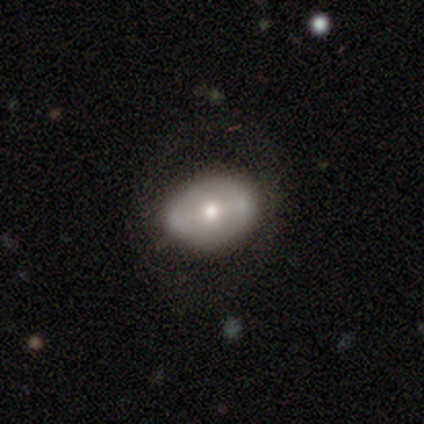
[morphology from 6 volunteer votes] Volunteers were most divided on "bar": no: 80%, strong: 20%, weak: 0%. More confident: edge-on disk — no (100%); spiral arms — no (100%); smooth or featured — featured or disk (83%); merging — none (83%); bulge size — moderate (80%).